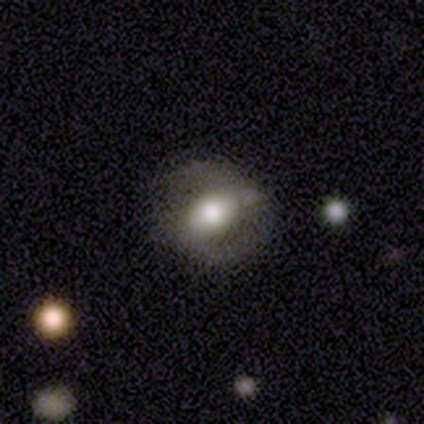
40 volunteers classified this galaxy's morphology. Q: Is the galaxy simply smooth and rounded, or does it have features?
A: featured or disk — 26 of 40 (65%).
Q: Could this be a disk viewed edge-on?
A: no — 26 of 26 (100%).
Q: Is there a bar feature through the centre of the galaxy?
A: weak — 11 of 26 (42%, tied with no).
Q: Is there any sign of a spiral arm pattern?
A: yes — 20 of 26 (77%).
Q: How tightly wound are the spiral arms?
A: tight — 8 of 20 (40%, tied with medium).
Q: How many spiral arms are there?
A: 2 — 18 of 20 (90%).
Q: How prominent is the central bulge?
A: large — 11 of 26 (42%, tied with moderate).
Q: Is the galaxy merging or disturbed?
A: none — 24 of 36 (67%).